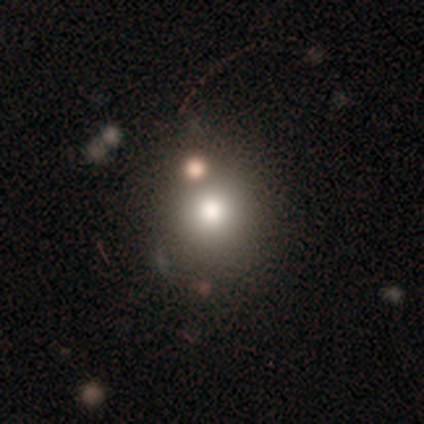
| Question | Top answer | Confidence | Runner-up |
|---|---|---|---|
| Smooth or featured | smooth | 100% | — |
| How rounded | round | 100% | — |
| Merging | none | 75% | merger (25%) |